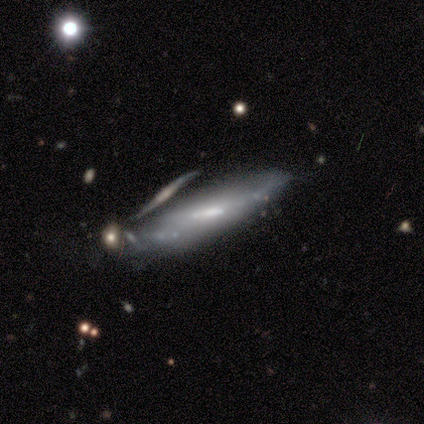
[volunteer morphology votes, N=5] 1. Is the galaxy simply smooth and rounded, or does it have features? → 60% featured or disk, 40% smooth, 0% star or artifact.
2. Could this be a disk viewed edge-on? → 100% no, 0% yes.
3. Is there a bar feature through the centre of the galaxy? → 67% weak, 33% no, 0% strong.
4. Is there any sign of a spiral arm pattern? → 67% no, 33% yes.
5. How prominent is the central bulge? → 67% small, 33% moderate, 0% dominant, 0% large, 0% none.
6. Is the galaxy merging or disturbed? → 40% minor disturbance, 20% none, 20% major disturbance, 20% merger.